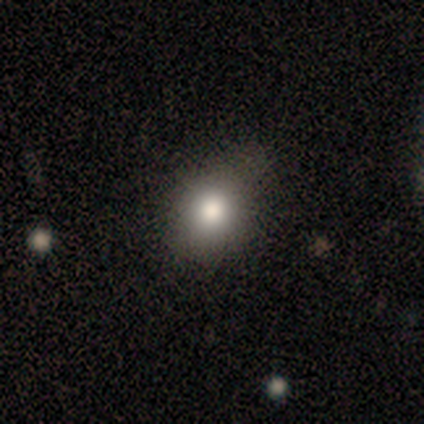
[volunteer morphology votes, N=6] Overall: smooth (83%). How rounded: round (60%; in between 40%). Merging: none (40%, tied with minor disturbance).